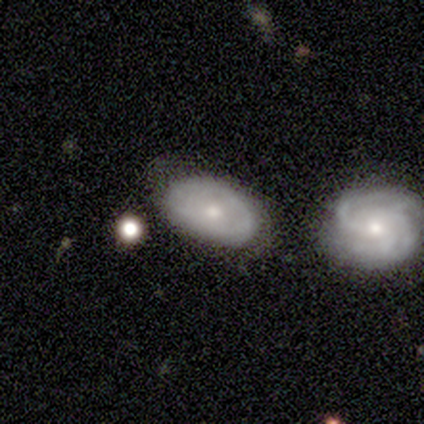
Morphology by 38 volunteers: Smooth or featured? 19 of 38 (50%) said featured or disk. Edge-on disk? 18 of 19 (95%) said no. Bar? 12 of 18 (67%) said no. Spiral arms? 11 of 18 (61%) said yes. Spiral winding? 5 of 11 (45%) said loose. Spiral arm count? 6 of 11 (55%) said can't tell. Bulge size? 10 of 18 (56%) said small. Merging? 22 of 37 (59%) said none.